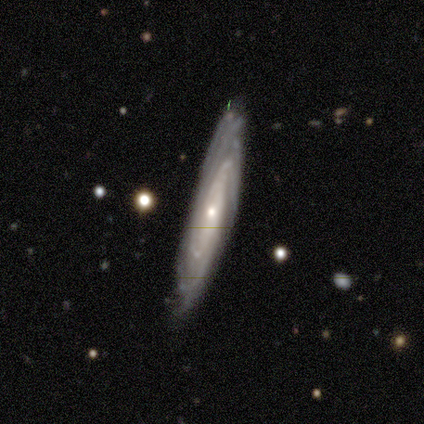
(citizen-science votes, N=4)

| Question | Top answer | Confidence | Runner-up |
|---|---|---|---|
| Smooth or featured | featured or disk | 100% | — |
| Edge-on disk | no | 75% | yes (25%) |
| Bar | no | 67% | weak (33%) |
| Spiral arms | yes | 100% | — |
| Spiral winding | tight | 100% | — |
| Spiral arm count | can't tell | 100% | — |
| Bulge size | moderate | 67% | small (33%) |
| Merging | none | 75% | minor disturbance (25%) |